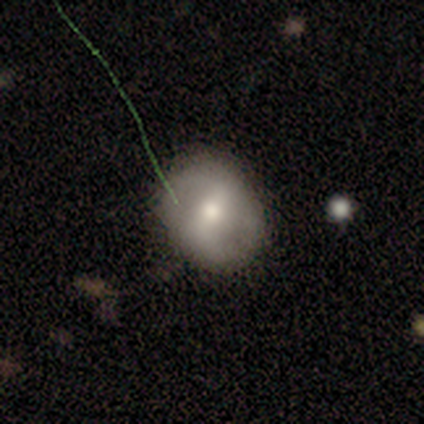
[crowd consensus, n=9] A featured or disk galaxy (78%) with a weak bar (50%), no spiral arms (83%) and a moderate central bulge (83%).

Vote fractions:
- Smooth or featured? featured or disk: 78% / smooth: 22% / star or artifact: 0%
- Edge-on disk? no: 86% / yes: 14%
- Bar? weak: 50% / no: 33% / strong: 17%
- Spiral arms? no: 83% / yes: 17%
- Bulge size? moderate: 83% / small: 17% / dominant: 0% / large: 0% / none: 0%
- Merging? none: 67% / minor disturbance: 33% / major disturbance: 0% / merger: 0%